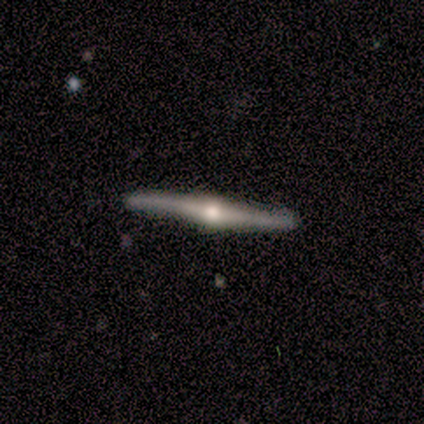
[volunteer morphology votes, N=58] type=featured or disk (90%); edge-on=yes (98%); edge-on bulge=rounded (96%); merging=none (78%).